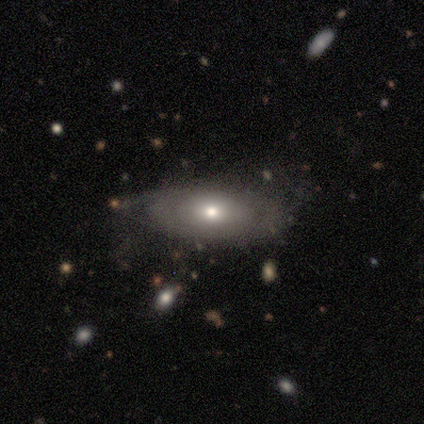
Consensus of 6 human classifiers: Smooth or featured: smooth — 50% (featured or disk — 33%)
How rounded: in between — 100%
Merging: none — 60% (minor disturbance — 20%)